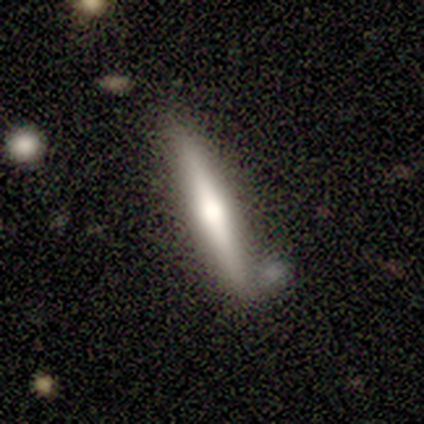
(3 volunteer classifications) This appears to be a smooth galaxy with no disk features (67%) that is in between round and cigar-shaped (50%, tied with cigar-shaped). Merging: none (67%).